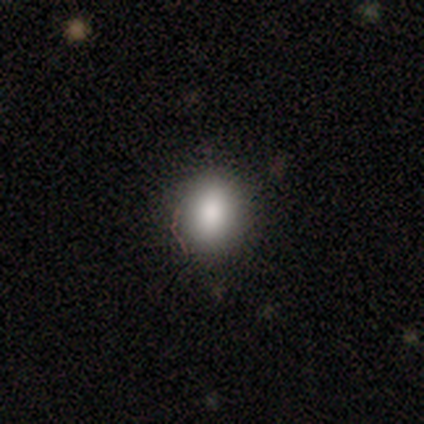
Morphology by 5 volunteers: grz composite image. It shows a smooth galaxy with no disk features (80%) that is round (75%). Merging: none (100%).